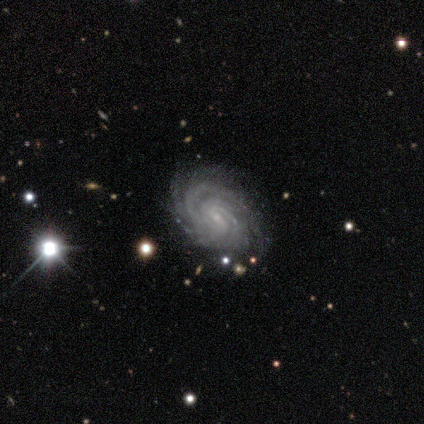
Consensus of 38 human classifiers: Q: Smooth or featured?
A: featured or disk (97%); runner-up: star or artifact (3%)
Q: Edge-on disk?
A: no (95%); runner-up: yes (5%)
Q: Bar?
A: weak (46%); runner-up: no (43%)
Q: Spiral arms?
A: yes (100%)
Q: Spiral winding?
A: tight (74%); runner-up: medium (26%)
Q: Spiral arm count?
A: can't tell (40%); runner-up: 4 (23%)
Q: Bulge size?
A: small (97%); runner-up: moderate (3%)
Q: Merging?
A: none (86%); runner-up: major disturbance (11%)